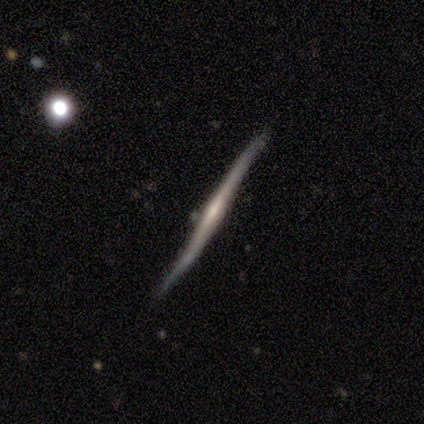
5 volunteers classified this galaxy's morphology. Smooth or featured? 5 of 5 (100%) said featured or disk. Edge-on disk? 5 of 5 (100%) said yes. Edge-on bulge? 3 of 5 (60%) said rounded. Merging? 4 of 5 (80%) said none.